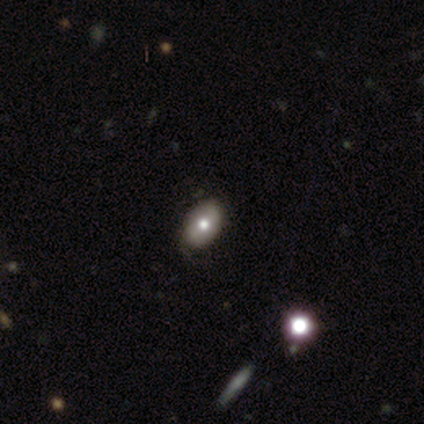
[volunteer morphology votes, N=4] Smooth or featured? smooth (50%, tied with star or artifact)
How rounded? round (50%, tied with in between)
Merging? none (100%)